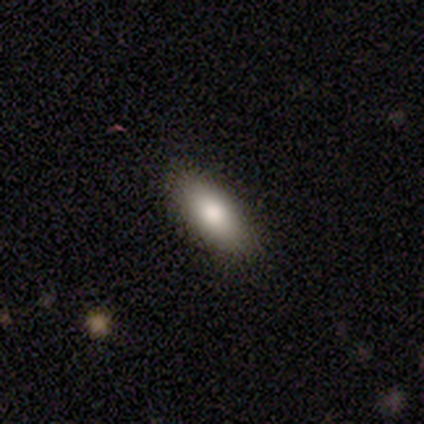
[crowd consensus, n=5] Q: Smooth or featured?
A: smooth (80%); runner-up: star or artifact (20%)
Q: How rounded?
A: in between (100%)
Q: Merging?
A: none (100%)